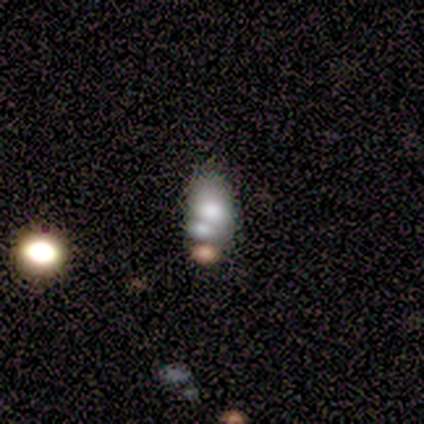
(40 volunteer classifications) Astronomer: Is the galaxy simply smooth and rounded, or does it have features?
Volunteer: smooth — 55%.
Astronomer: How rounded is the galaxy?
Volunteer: in between — 82%.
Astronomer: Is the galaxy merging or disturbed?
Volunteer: merger — 42% (runner-up: none, 33%).